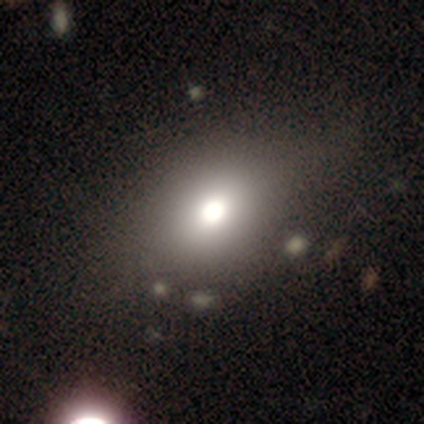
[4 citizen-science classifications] Smooth or featured: featured or disk — 50% (smooth — 25%)
Edge-on disk: no — 100%
Bar: no — 100%
Spiral arms: no — 100%
Bulge size: large — 100%
Merging: none — 67% (minor disturbance — 33%)